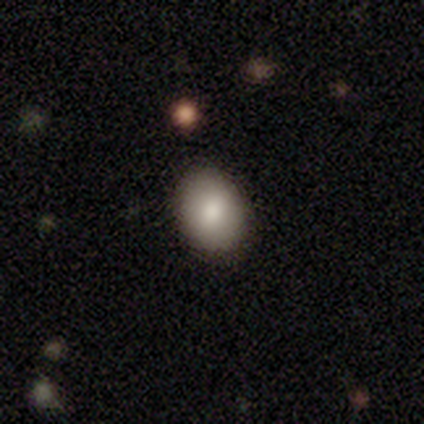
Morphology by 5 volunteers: smooth-or-featured: smooth: 80% | featured or disk: 20% | star or artifact: 0%
  how-rounded: round: 50% (tied) | in between: 50% (tied) | cigar-shaped: 0%
  merging: none: 100% | minor disturbance: 0% | major disturbance: 0% | merger: 0%